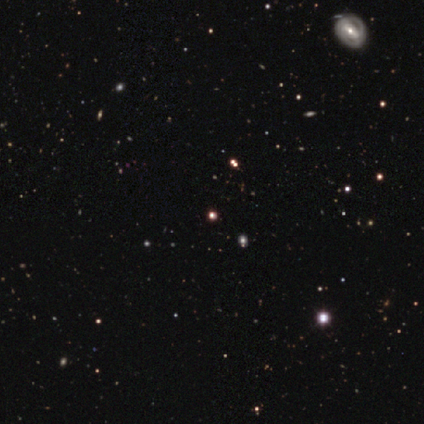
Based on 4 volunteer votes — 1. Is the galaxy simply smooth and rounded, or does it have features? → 75% star or artifact, 25% featured or disk, 0% smooth.